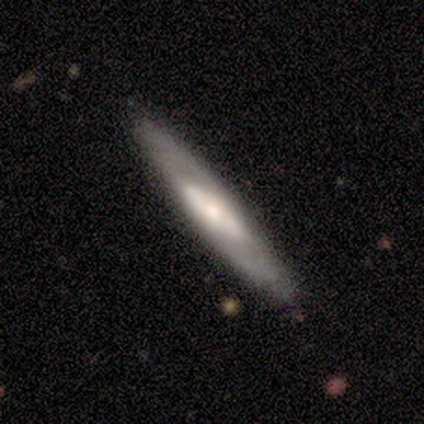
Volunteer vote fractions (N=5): Smooth or featured?
  - featured or disk: 60% *
  - smooth: 40%
  - star or artifact: 0%
Edge-on disk?
  - yes: 67% *
  - no: 33%
Edge-on bulge?
  - none: 50% * (tied)
  - rounded: 50% * (tied)
  - boxy: 0%
Merging?
  - none: 100% *
  - minor disturbance: 0%
  - major disturbance: 0%
  - merger: 0%